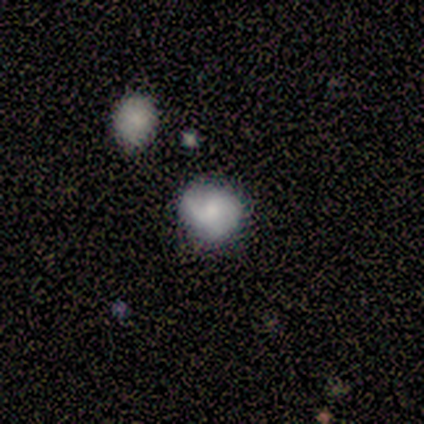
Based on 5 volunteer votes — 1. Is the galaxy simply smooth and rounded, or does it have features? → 80% smooth, 20% featured or disk, 0% star or artifact.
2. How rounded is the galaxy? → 50% round (tied), 50% in between (tied), 0% cigar-shaped.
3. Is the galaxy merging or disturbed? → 60% none, 40% minor disturbance, 0% major disturbance, 0% merger.